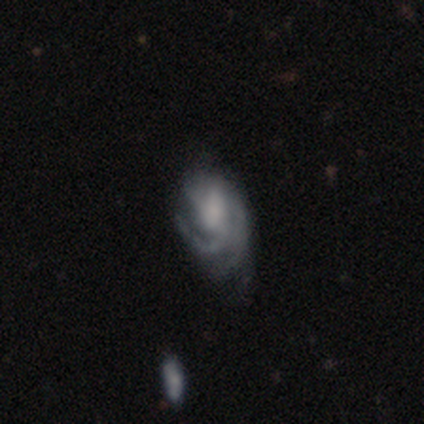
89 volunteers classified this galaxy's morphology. type=featured or disk (76%); edge-on=no (96%); bar=no (58%); spiral arms=yes (97%); winding=tight (46%); arm count=3 (29%, tied with can't tell); bulge=moderate (34%, tied with none); merging=none (46%).